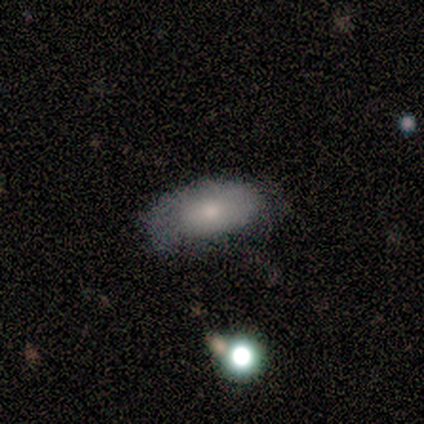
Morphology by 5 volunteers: Smooth or featured: smooth — 100%
How rounded: in between — 100%
Merging: none — 100%